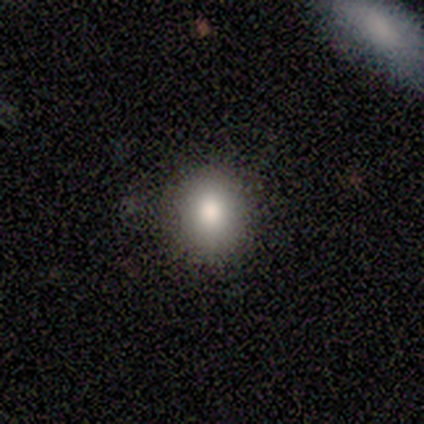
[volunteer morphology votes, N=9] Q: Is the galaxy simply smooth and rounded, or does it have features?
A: smooth — 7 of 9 (78%).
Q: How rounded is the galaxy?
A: in between — 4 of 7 (57%).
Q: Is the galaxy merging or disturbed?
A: none — 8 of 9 (89%).